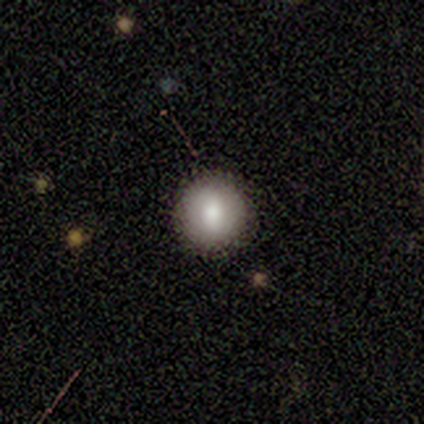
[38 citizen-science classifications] A smooth galaxy with no disk features (76%) that is round (97%). Merging: none (88%).